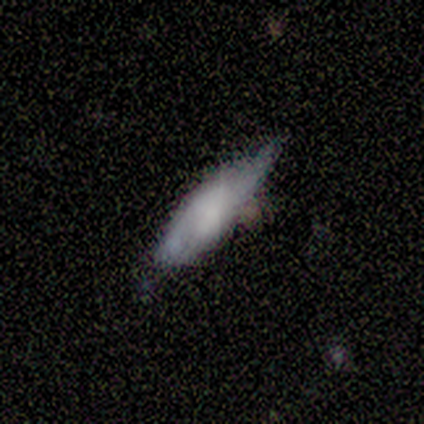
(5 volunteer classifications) Smooth or featured?
  - smooth: 100% *
  - featured or disk: 0%
  - star or artifact: 0%
How rounded?
  - cigar-shaped: 60% *
  - round: 20%
  - in between: 20%
Merging?
  - minor disturbance: 60% *
  - none: 40%
  - major disturbance: 0%
  - merger: 0%